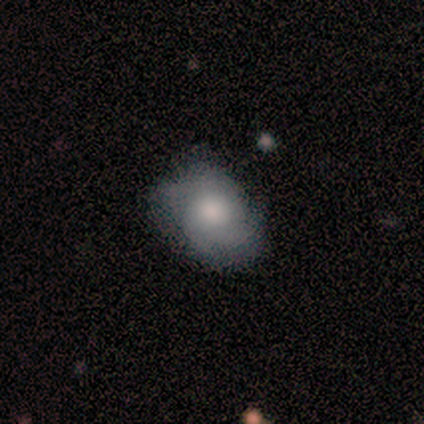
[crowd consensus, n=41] smooth-or-featured: featured or disk: 49% | smooth: 44% | star or artifact: 7%
  disk-edge-on: no: 95% | yes: 5%
    bar: no: 89% | weak: 11% | strong: 0%
    has-spiral-arms: yes: 89% | no: 11%
      spiral-winding: tight: 41% (tied) | medium: 41% (tied) | loose: 18%
      spiral-arm-count: 2: 47% | can't tell: 24% | 3: 18% | 1: 6% | 4: 6% | more than 4: 0%
    bulge-size: moderate: 42% | large: 37% | none: 11% | dominant: 5% | small: 5%
  merging: none: 55% | minor disturbance: 29% | major disturbance: 16% | merger: 0%